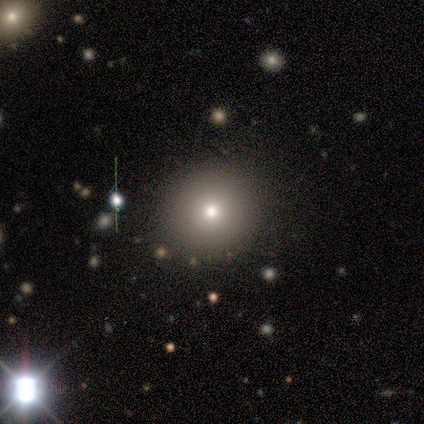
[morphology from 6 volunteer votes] smooth-or-featured: smooth: 67% | featured or disk: 33% | star or artifact: 0%
  how-rounded: round: 100% | in between: 0% | cigar-shaped: 0%
  merging: none: 100% | minor disturbance: 0% | major disturbance: 0% | merger: 0%